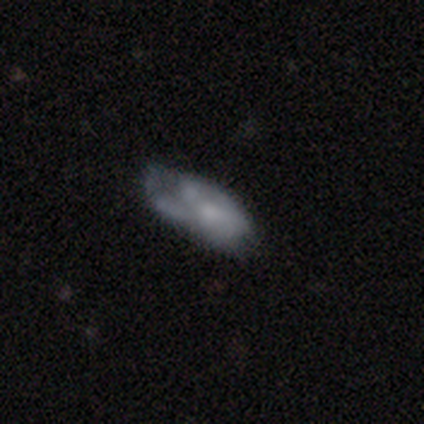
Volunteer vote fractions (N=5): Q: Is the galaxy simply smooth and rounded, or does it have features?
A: smooth — 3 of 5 (60%).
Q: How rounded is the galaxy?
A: in between — 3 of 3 (100%).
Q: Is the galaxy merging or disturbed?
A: none — 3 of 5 (60%).